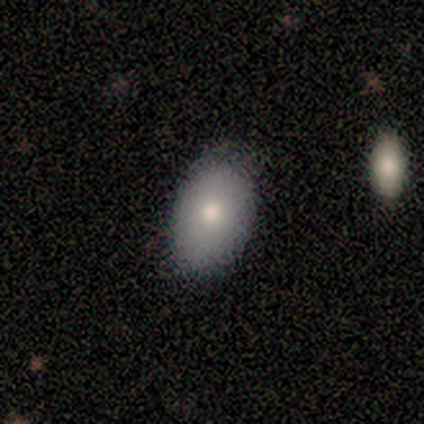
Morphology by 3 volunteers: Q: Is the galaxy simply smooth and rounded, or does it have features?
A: smooth — 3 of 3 (100%).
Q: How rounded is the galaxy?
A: in between — 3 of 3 (100%).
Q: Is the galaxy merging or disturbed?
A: none — 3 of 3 (100%).